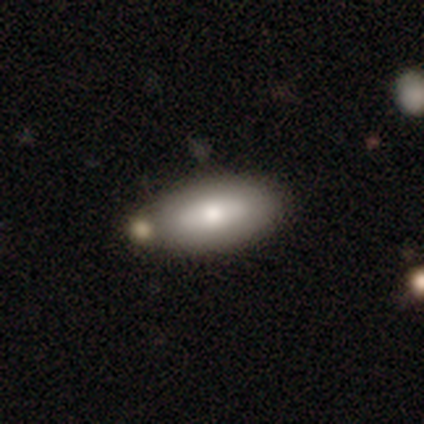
smooth 80%, star or artifact 20%, featured or disk 0%. Down the decision tree: how rounded — in between (50%); merging — none (100%).